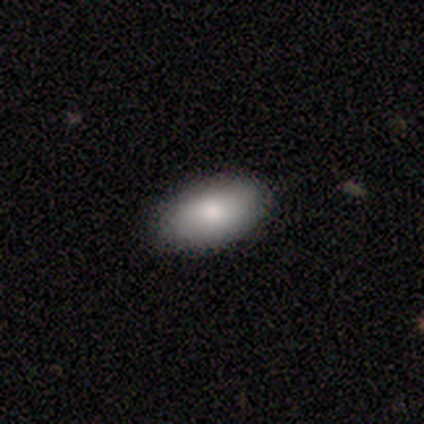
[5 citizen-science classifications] smooth-or-featured: smooth: 80% | star or artifact: 20% | featured or disk: 0%
  how-rounded: in between: 100% | round: 0% | cigar-shaped: 0%
  merging: none: 75% | minor disturbance: 25% | major disturbance: 0% | merger: 0%